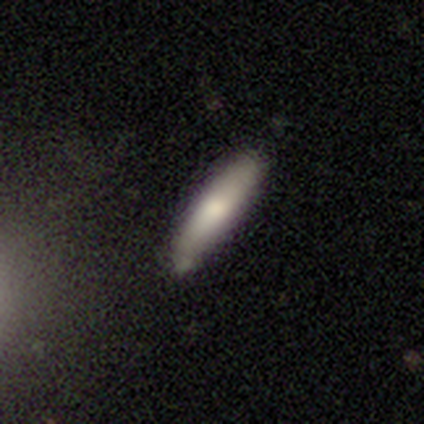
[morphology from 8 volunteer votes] Smooth or featured: smooth — 50% (featured or disk — 38%)
How rounded: cigar-shaped — 75% (in between — 25%)
Merging: none — 71% (minor disturbance — 29%)